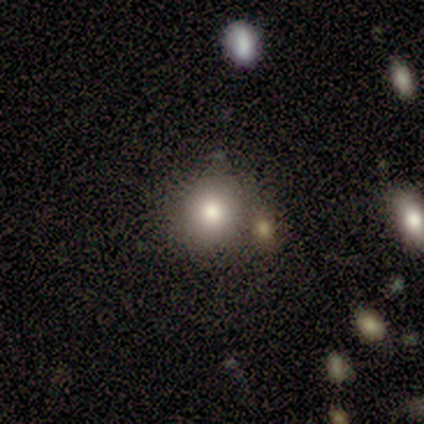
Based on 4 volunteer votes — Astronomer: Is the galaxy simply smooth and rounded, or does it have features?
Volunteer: smooth — 100%.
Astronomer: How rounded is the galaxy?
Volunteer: round — 75%.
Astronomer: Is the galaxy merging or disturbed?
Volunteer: none — 75%.